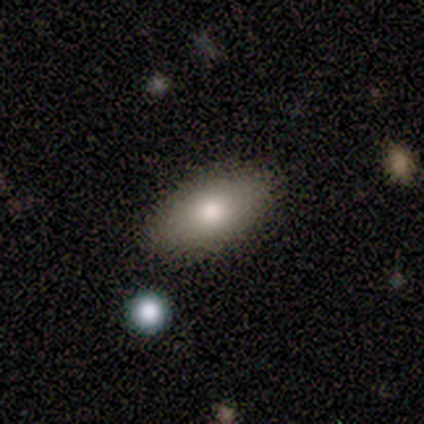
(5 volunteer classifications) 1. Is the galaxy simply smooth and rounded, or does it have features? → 80% smooth, 20% featured or disk, 0% star or artifact.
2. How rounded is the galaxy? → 75% in between, 25% cigar-shaped, 0% round.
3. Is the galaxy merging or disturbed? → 80% none, 20% minor disturbance, 0% major disturbance, 0% merger.